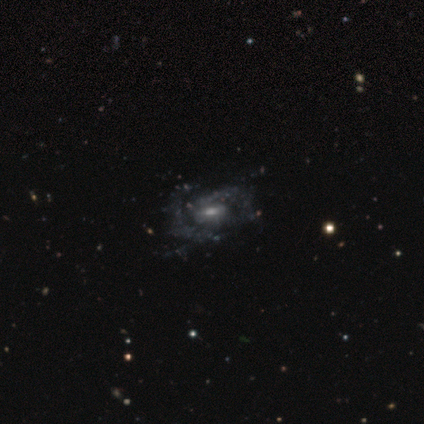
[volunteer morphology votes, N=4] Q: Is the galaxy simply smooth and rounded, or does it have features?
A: featured or disk — 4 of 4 (100%).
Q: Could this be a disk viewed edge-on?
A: no — 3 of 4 (75%).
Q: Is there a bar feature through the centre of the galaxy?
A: no — 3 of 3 (100%).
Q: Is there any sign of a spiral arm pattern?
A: no — 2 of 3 (67%).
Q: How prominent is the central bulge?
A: large — 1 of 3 (33%, tied with moderate and none).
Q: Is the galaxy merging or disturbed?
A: none — 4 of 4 (100%).